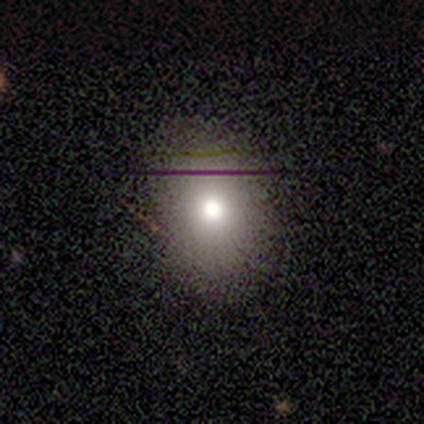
A smooth galaxy with no disk features (100%) that is round (50%, tied with in between).

Vote fractions:
- Smooth or featured? smooth: 100% / featured or disk: 0% / star or artifact: 0%
- How rounded? round: 50% (tied) / in between: 50% (tied) / cigar-shaped: 0%
- Merging? none: 50% (tied) / minor disturbance: 50% (tied) / major disturbance: 0% / merger: 0%